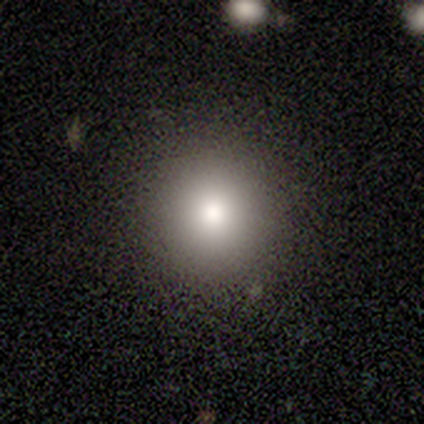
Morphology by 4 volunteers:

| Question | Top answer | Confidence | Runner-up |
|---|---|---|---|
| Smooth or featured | smooth | 75% | featured or disk (25%) |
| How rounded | round | 100% | — |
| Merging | none | 100% | — |